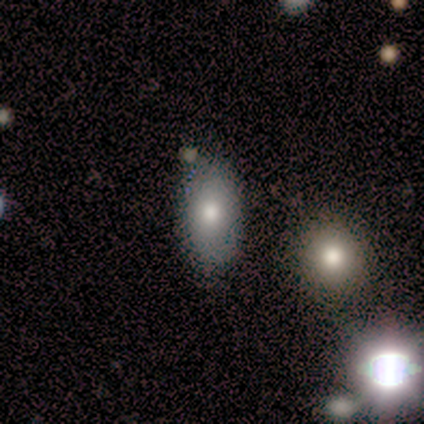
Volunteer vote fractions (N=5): A smooth galaxy with no disk features (60%) that is in between round and cigar-shaped (100%).

Vote fractions:
- Smooth or featured? smooth: 60% / featured or disk: 40% / star or artifact: 0%
- How rounded? in between: 100% / round: 0% / cigar-shaped: 0%
- Merging? none: 100% / minor disturbance: 0% / major disturbance: 0% / merger: 0%